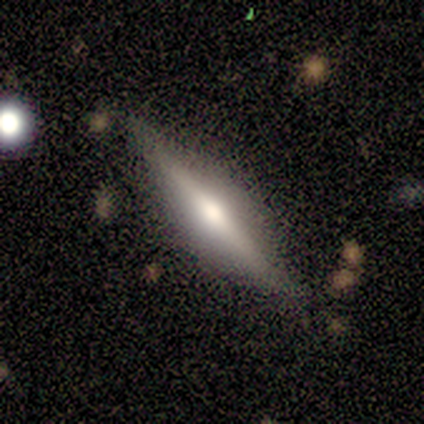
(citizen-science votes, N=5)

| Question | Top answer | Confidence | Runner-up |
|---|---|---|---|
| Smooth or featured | featured or disk | 60% | smooth (40%) |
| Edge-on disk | yes | 100% | — |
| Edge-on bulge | rounded | 100% | — |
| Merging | none | 80% | minor disturbance (20%) |